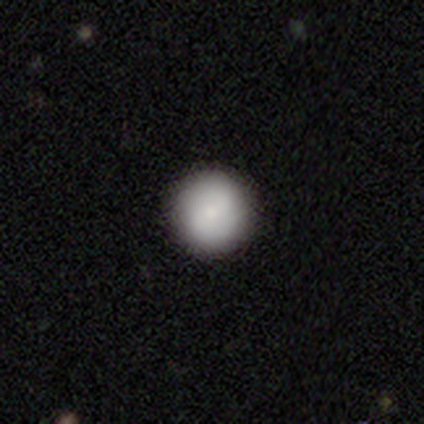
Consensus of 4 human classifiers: Smooth or featured: smooth — 100%
How rounded: round — 100%
Merging: none — 100%